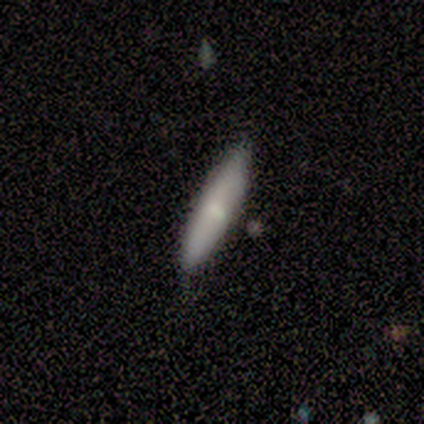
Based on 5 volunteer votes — Q: Smooth or featured?
A: smooth (60%); runner-up: featured or disk (40%)
Q: How rounded?
A: cigar-shaped (67%); runner-up: in between (33%)
Q: Merging?
A: none (100%)